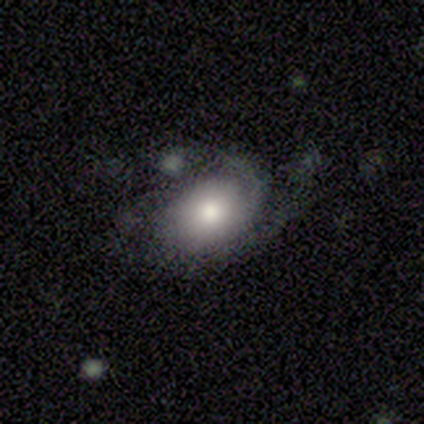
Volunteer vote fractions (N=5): Smooth or featured: featured or disk — 60% (smooth — 40%)
Edge-on disk: no — 100%
Bar: no — 67% (weak — 33%)
Spiral arms: yes — 67% (no — 33%)
Spiral winding: loose — 100%
Spiral arm count: 2 — 100%
Bulge size: moderate — 67% (large — 33%)
Merging: minor disturbance — 40% (tied with major disturbance — 40%)